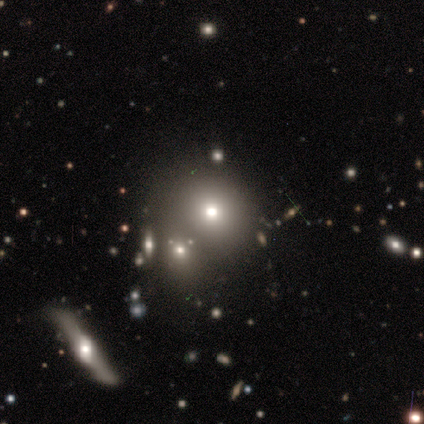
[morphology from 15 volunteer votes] Volunteers were most divided on "smooth or featured": smooth: 47%, star or artifact: 40%, featured or disk: 13%. Remaining: how rounded — round (100%); merging — none (44%).